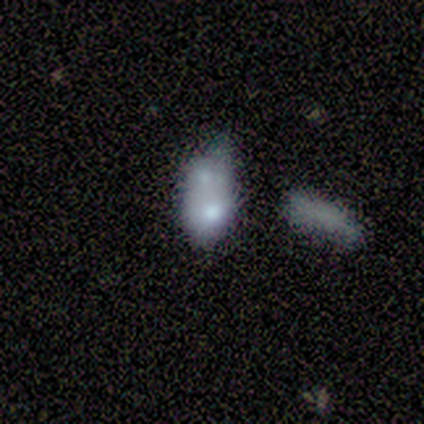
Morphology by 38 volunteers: type=smooth (53%); roundness=in between (90%); merging=merger (54%).